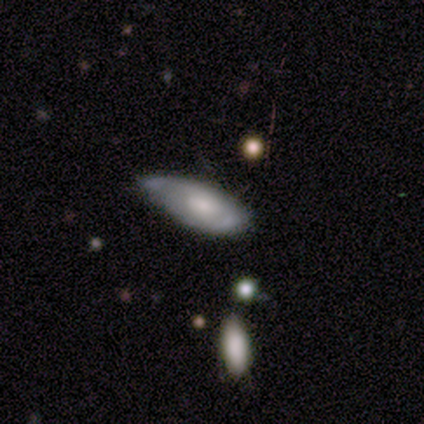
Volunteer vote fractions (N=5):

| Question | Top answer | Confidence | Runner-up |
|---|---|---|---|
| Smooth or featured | smooth | 40% | tied: featured or disk (40%) |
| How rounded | in between | 100% | — |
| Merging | minor disturbance | 50% | none (25%) |